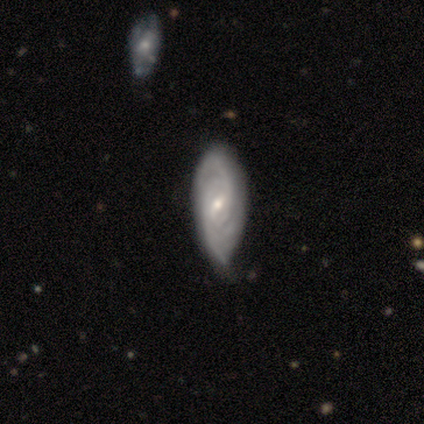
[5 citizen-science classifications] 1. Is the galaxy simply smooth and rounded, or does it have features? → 100% featured or disk, 0% smooth, 0% star or artifact.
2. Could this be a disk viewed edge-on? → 100% no, 0% yes.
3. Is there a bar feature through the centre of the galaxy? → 100% weak, 0% strong, 0% no.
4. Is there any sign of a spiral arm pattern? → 100% yes, 0% no.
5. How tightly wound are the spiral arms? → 80% tight, 20% medium, 0% loose.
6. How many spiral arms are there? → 60% can't tell, 20% 2, 20% 3, 0% 1, 0% 4, 0% more than 4.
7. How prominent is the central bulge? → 60% moderate, 40% small, 0% dominant, 0% large, 0% none.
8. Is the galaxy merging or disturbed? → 80% none, 20% minor disturbance, 0% major disturbance, 0% merger.